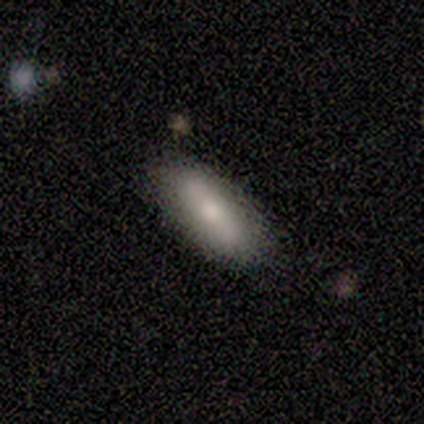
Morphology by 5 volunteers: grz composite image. It shows a smooth galaxy with no disk features (80%) that is in between round and cigar-shaped (75%). Merging: none (80%).